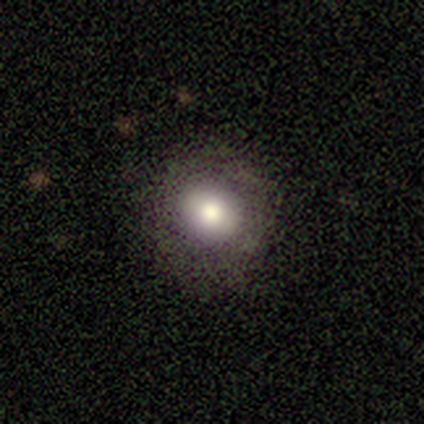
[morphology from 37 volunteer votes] smooth-or-featured: smooth: 70% | featured or disk: 19% | star or artifact: 11%
  how-rounded: round: 88% | in between: 12% | cigar-shaped: 0%
  merging: none: 76% | minor disturbance: 18% | major disturbance: 6% | merger: 0%